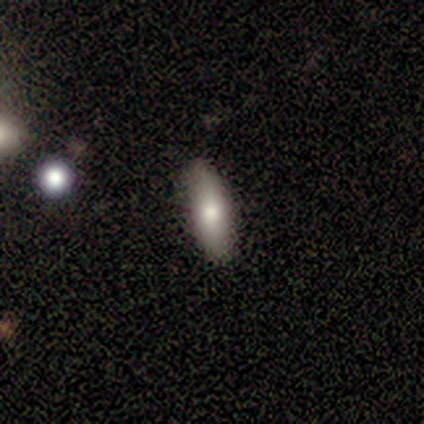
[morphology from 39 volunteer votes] A smooth galaxy with no disk features (69%) that is cigar-shaped (56%).

Vote fractions:
- Smooth or featured? smooth: 69% / featured or disk: 21% / star or artifact: 10%
- How rounded? cigar-shaped: 56% / in between: 44% / round: 0%
- Merging? none: 83% / minor disturbance: 17% / major disturbance: 0% / merger: 0%